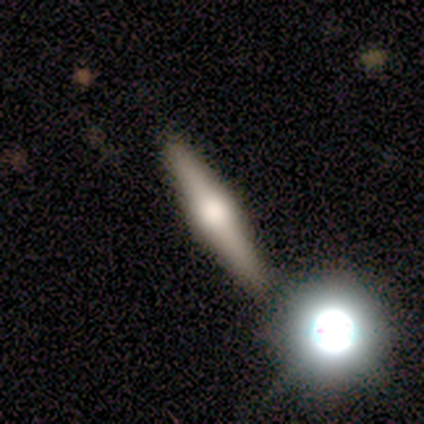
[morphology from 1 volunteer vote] A featured or disk galaxy (100%) viewed edge-on (100%) with a rounded central bulge (100%).

Vote fractions:
- Smooth or featured? featured or disk: 100% / smooth: 0% / star or artifact: 0%
- Edge-on disk? yes: 100% / no: 0%
- Edge-on bulge? rounded: 100% / boxy: 0% / none: 0%
- Merging? none: 100% / minor disturbance: 0% / major disturbance: 0% / merger: 0%